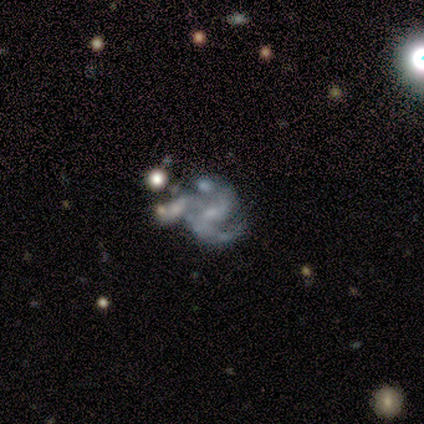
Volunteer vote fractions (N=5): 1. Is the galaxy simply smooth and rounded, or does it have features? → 80% featured or disk, 20% star or artifact, 0% smooth.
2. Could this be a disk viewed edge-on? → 100% no, 0% yes.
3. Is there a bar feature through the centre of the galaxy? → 75% no, 25% weak, 0% strong.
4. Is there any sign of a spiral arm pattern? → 50% yes (tied), 50% no (tied).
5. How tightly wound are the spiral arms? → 50% medium (tied), 50% loose (tied), 0% tight.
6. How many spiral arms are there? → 50% 2 (tied), 50% can't tell (tied), 0% 1, 0% 3, 0% 4, 0% more than 4.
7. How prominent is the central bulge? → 50% small (tied), 50% none (tied), 0% dominant, 0% large, 0% moderate.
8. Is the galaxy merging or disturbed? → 50% none (tied), 50% merger (tied), 0% minor disturbance, 0% major disturbance.